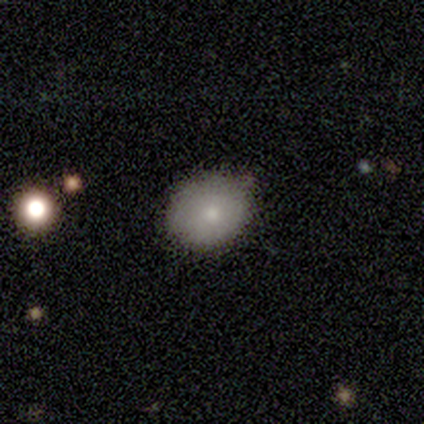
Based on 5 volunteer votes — Smooth or featured?
  - smooth: 100% *
  - featured or disk: 0%
  - star or artifact: 0%
How rounded?
  - round: 60% *
  - in between: 40%
  - cigar-shaped: 0%
Merging?
  - none: 60% *
  - minor disturbance: 40%
  - major disturbance: 0%
  - merger: 0%